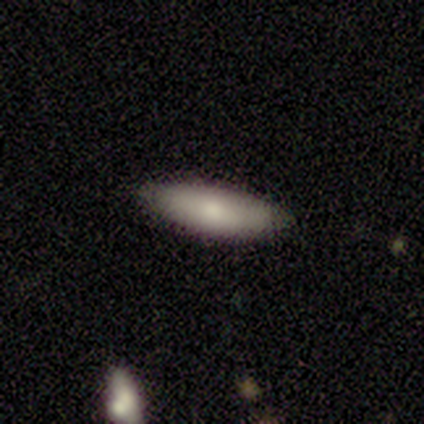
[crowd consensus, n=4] Morphology: type=smooth (75%); roundness=cigar-shaped (67%); merging=none (100%).